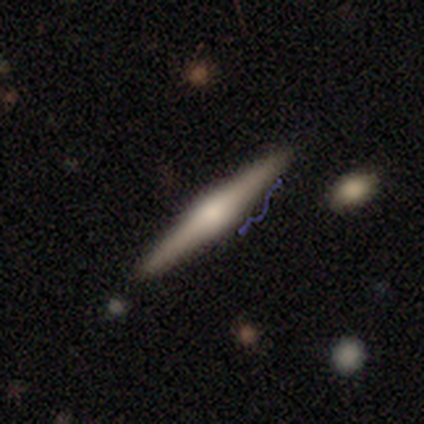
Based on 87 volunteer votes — This is likely a featured or disk galaxy (70%). It is clearly viewed edge-on (98%). Edge-on bulge: likely rounded (78%). Merging: clearly none (82%).